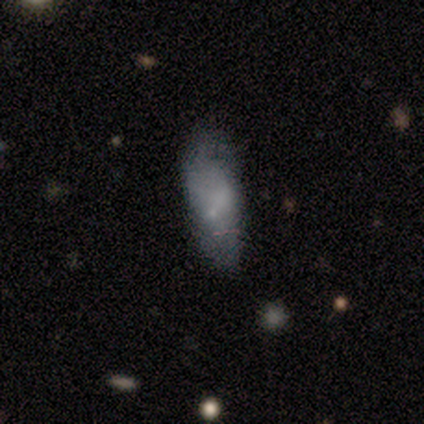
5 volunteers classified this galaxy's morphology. Volunteers were most divided on "merging" (2-way tie): none: 50%, minor disturbance: 50%, major disturbance: 0%, merger: 0%. More confident: how rounded — in between (100%); smooth or featured — smooth (80%).